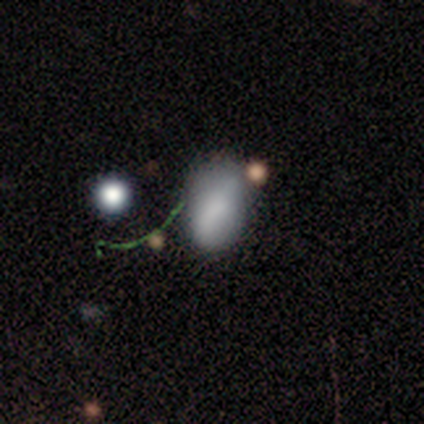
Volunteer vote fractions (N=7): Smooth or featured? smooth (100%)
How rounded? in between (100%)
Merging? minor disturbance (86%)